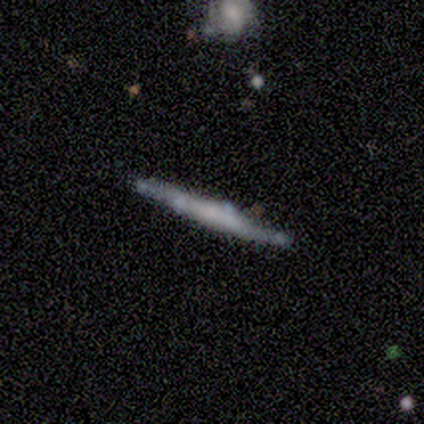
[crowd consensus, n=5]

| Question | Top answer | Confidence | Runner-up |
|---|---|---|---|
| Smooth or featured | featured or disk | 80% | star or artifact (20%) |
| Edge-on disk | yes | 75% | no (25%) |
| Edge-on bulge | rounded | 67% | boxy (33%) |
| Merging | none | 50% | tied: minor disturbance (50%) |